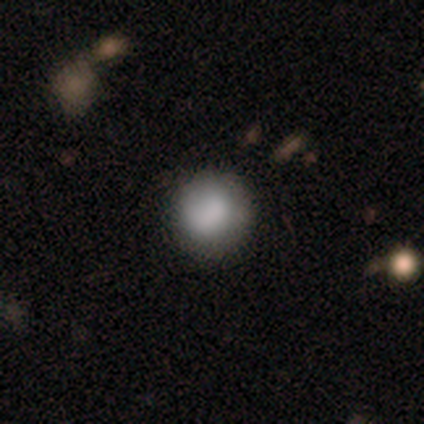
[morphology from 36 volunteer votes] smooth_or_featured: smooth (p=0.75) [alt: featured or disk p=0.19]
how_rounded: round (p=0.96) [alt: in between p=0.04]
merging: none (p=0.76) [alt: minor disturbance p=0.15]